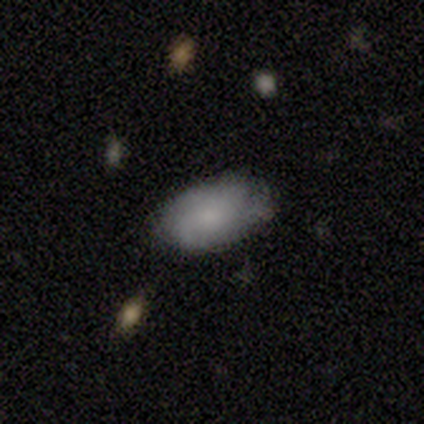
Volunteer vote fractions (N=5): This appears to be a smooth galaxy with no disk features (60%) that is in between round and cigar-shaped (100%). Merging: minor disturbance (60%).